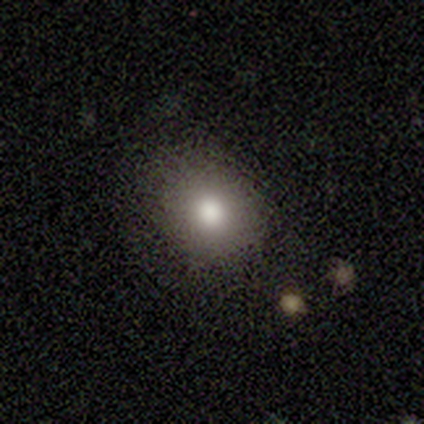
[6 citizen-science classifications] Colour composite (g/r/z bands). It shows a smooth galaxy with no disk features (100%) that is round (67%). Merging: none (100%).